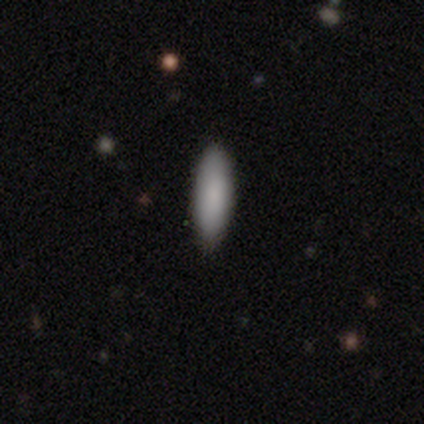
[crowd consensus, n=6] Volunteers were most divided on "how rounded" (2-way tie): in between: 50%, cigar-shaped: 50%, round: 0%. More confident: smooth or featured — smooth (100%); merging — none (100%).